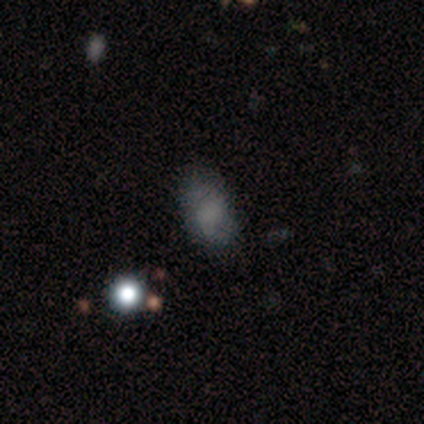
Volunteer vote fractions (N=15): Overall: smooth (60%; featured or disk 27%). How rounded: in between (78%). Merging: none (85%).